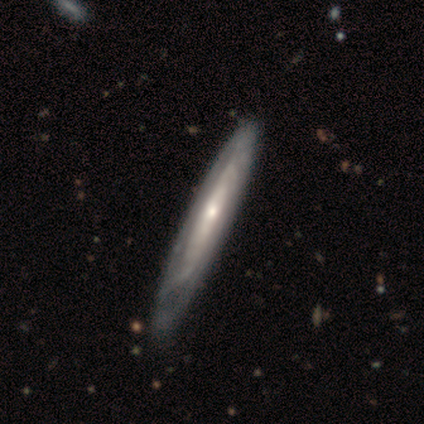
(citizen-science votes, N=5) featured or disk 60%, smooth 20%, star or artifact 20%. Down the decision tree: edge-on disk — yes (100%); edge-on bulge — rounded (67%); merging — none (50%, tied with minor disturbance).